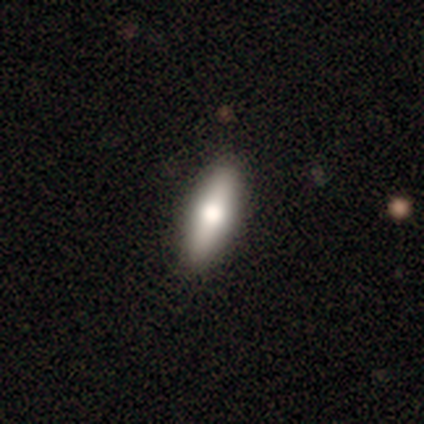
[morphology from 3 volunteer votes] Smooth or featured?
  - featured or disk: 67% *
  - smooth: 33%
  - star or artifact: 0%
Edge-on disk?
  - yes: 100% *
  - no: 0%
Edge-on bulge?
  - rounded: 100% *
  - boxy: 0%
  - none: 0%
Merging?
  - none: 100% *
  - minor disturbance: 0%
  - major disturbance: 0%
  - merger: 0%